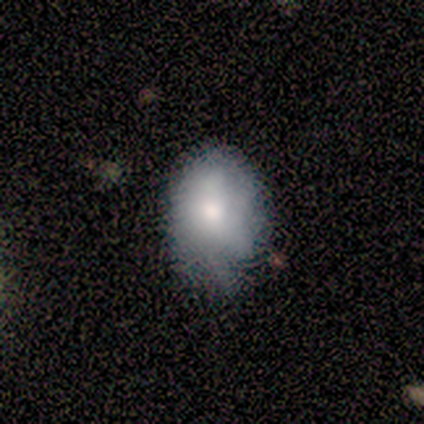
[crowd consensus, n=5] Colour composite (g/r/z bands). It shows a smooth galaxy with no disk features (100%) that is in between round and cigar-shaped (60%). Merging: none (80%).